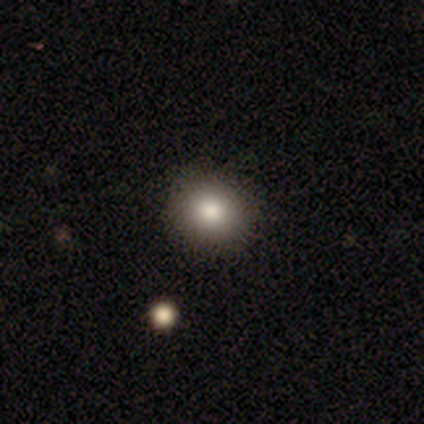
smooth-or-featured: smooth: 88% | featured or disk: 12% | star or artifact: 0%
  how-rounded: round: 89% | in between: 11% | cigar-shaped: 0%
  merging: none: 90% | minor disturbance: 7% | major disturbance: 2% | merger: 0%